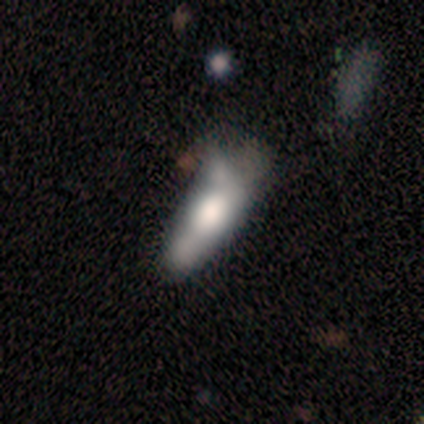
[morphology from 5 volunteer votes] Overall: featured or disk (60%; smooth 40%). Edge-on disk: no (100%). Bar: no (67%; weak 33%). Spiral arms: no (100%). Bulge size: large (67%; none 33%). Merging: none (40%; minor disturbance 20%).